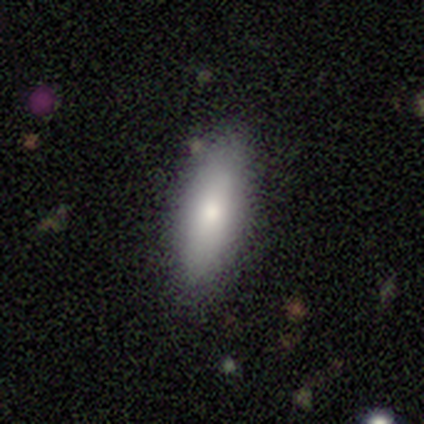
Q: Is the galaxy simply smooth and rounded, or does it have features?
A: smooth — 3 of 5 (60%).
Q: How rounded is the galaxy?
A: in between — 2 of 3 (67%).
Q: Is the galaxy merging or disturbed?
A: none — 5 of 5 (100%).